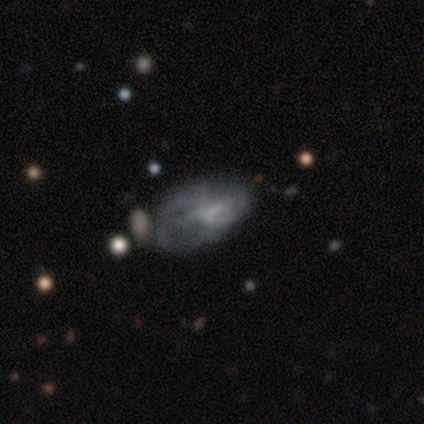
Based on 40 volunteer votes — This appears to be a featured or disk galaxy (72%) with a weak bar (52%), no spiral arms (55%) and no central bulge (66%). Merging: major disturbance (42%).